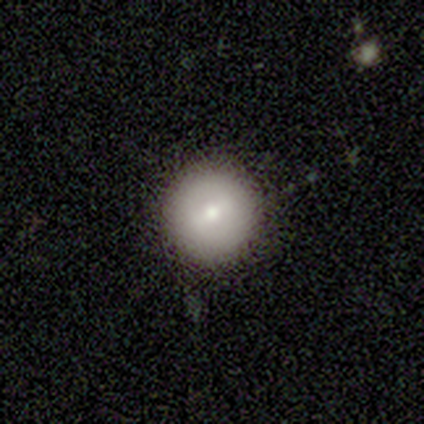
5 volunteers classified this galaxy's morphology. This appears to be a smooth galaxy with no disk features (80%) that is round (100%). Merging: none (100%).